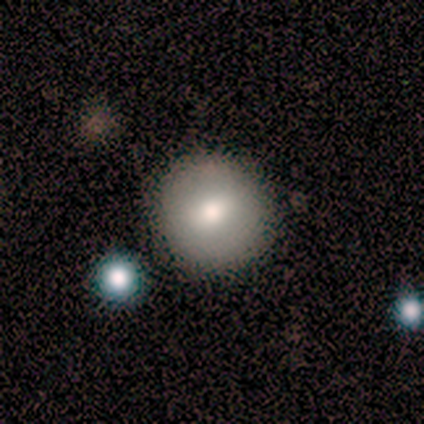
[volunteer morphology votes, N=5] Q: Smooth or featured?
A: featured or disk (60%); runner-up: smooth (20%)
Q: Edge-on disk?
A: no (100%)
Q: Bar?
A: weak (67%); runner-up: no (33%)
Q: Spiral arms?
A: no (100%)
Q: Bulge size?
A: large (33%); tied with: moderate (33%); small (33%)
Q: Merging?
A: none (100%)